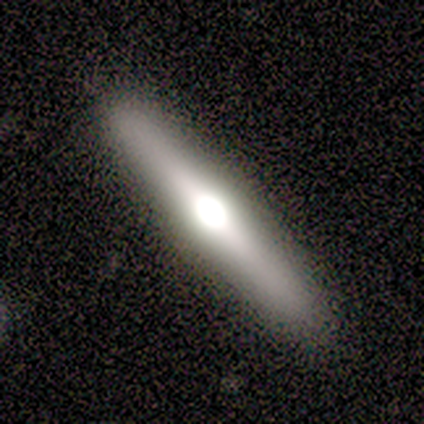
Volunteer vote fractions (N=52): Volunteers were most divided on "smooth or featured": featured or disk: 71%, smooth: 27%, star or artifact: 2%. More confident: edge-on disk — yes (100%); merging — none (96%); edge-on bulge — rounded (95%).